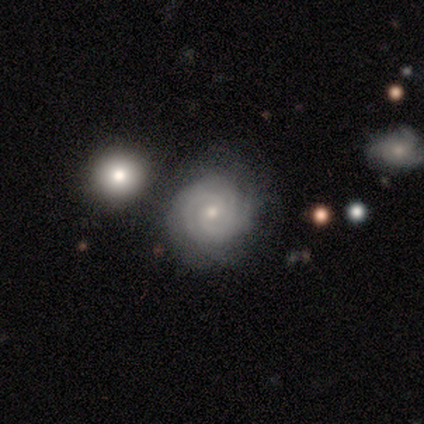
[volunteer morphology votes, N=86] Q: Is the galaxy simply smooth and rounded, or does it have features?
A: featured or disk — 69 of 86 (80%).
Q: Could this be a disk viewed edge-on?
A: no — 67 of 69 (97%).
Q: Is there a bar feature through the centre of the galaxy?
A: no — 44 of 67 (66%).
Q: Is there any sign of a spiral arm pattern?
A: yes — 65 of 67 (97%).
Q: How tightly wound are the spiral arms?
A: tight — 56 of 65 (86%).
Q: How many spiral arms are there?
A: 3 — 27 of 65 (42%).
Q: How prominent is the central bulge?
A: small — 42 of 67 (63%).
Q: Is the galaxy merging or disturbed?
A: none — 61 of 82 (74%).